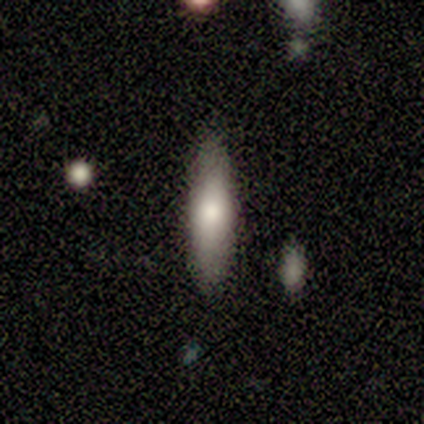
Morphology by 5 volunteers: Volunteers were most divided on "merging" (2-way tie): none: 40%, minor disturbance: 40%, major disturbance: 20%, merger: 0%. More confident: smooth or featured — smooth (80%); how rounded — cigar-shaped (75%).